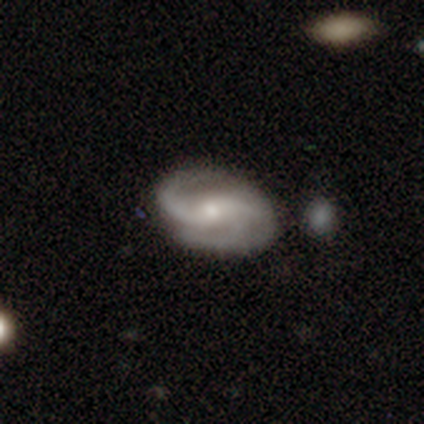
A featured or disk galaxy (92%) with a weak bar (47%), 2 (86%) medium (50%) spiral arms (100%) and a moderate central bulge (53%).

Vote fractions:
- Smooth or featured? featured or disk: 92% / smooth: 5% / star or artifact: 3%
- Edge-on disk? no: 100% / yes: 0%
- Bar? weak: 47% / no: 33% / strong: 19%
- Spiral arms? yes: 100% / no: 0%
- Spiral winding? medium: 50% / tight: 25% / loose: 25%
- Spiral arm count? 2: 86% / 3: 6% / can't tell: 6% / 4: 3% / 1: 0% / more than 4: 0%
- Bulge size? moderate: 53% / small: 44% / none: 3% / dominant: 0% / large: 0%
- Merging? none: 76% / minor disturbance: 13% / major disturbance: 8% / merger: 3%